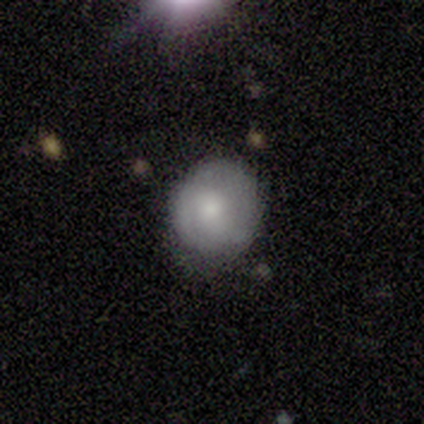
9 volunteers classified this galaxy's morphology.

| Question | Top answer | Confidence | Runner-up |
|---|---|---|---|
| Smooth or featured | smooth | 78% | featured or disk (22%) |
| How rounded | round | 86% | in between (14%) |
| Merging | none | 56% | minor disturbance (33%) |